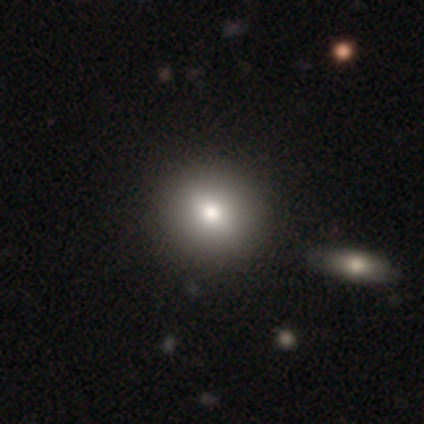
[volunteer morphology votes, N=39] smooth_or_featured: smooth (p=0.82) [alt: featured or disk p=0.15]
how_rounded: round (p=0.91) [alt: in between p=0.09]
merging: none (p=0.76) [alt: merger p=0.05]